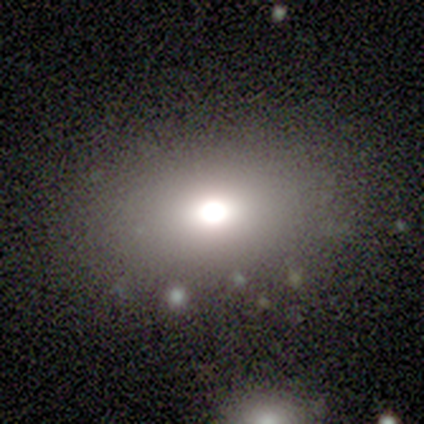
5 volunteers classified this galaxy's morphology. Smooth or featured: smooth — 80% (featured or disk — 20%)
How rounded: in between — 75% (round — 25%)
Merging: none — 80% (minor disturbance — 20%)